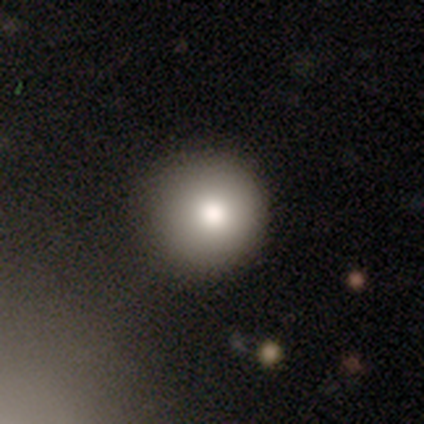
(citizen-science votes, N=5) Smooth or featured? smooth (80%)
How rounded? round (100%)
Merging? none (75%)